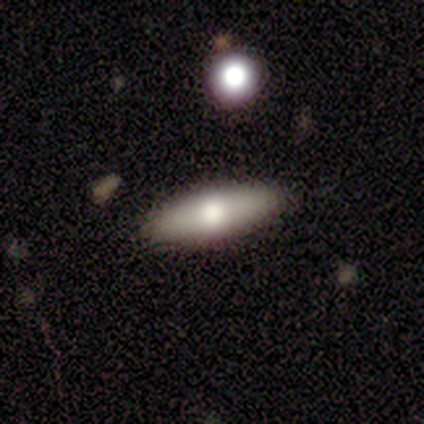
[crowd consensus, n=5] Smooth or featured? smooth (60%)
How rounded? in between (67%)
Merging? none (100%)